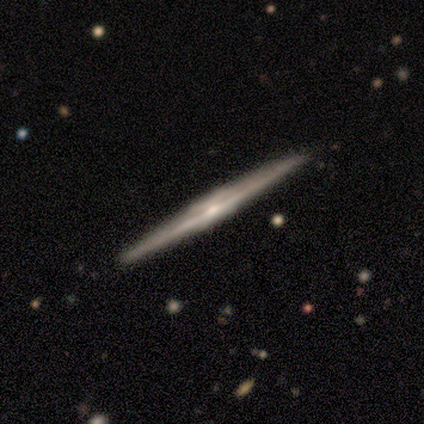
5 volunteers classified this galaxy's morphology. type=featured or disk (60%); edge-on=yes (100%); edge-on bulge=rounded (67%); merging=none (80%).